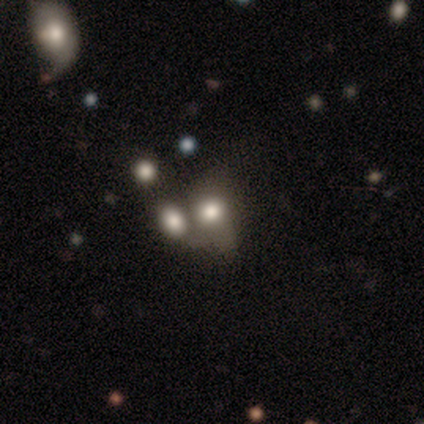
Smooth or featured: smooth — 60% (featured or disk — 20%)
How rounded: round — 100%
Merging: merger — 75% (minor disturbance — 25%)